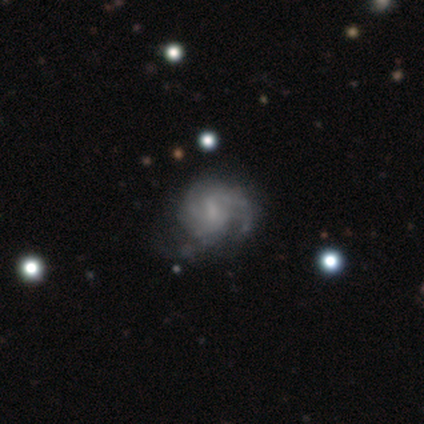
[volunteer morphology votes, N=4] type=featured or disk (100%); edge-on=no (100%); bar=no (75%); spiral arms=yes (75%); winding=medium (67%); arm count=can't tell (67%); bulge=small (50%); merging=none (50%, tied with major disturbance).